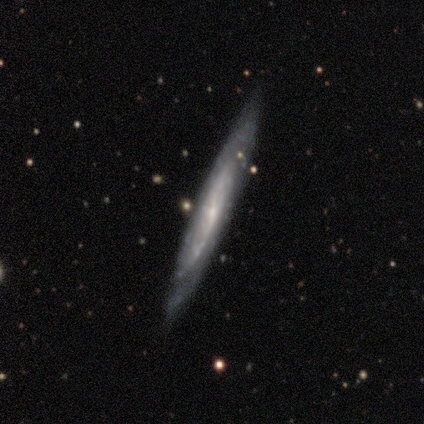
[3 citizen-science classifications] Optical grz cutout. It shows a featured or disk galaxy (100%) viewed edge-on (67%) with no central bulge (50%, tied with rounded). Merging: none (100%).